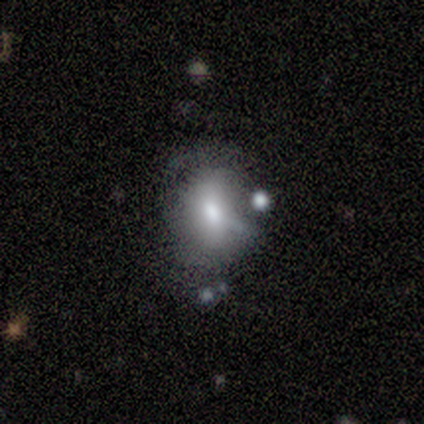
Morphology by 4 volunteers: Overall: smooth (50%, tied with featured or disk). How rounded: round (50%, tied with in between). Merging: none (75%).